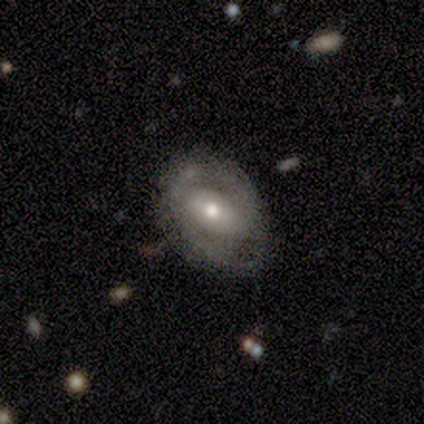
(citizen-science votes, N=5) This appears to be a smooth galaxy with no disk features (60%) that is in between round and cigar-shaped (100%). Merging: none (60%).